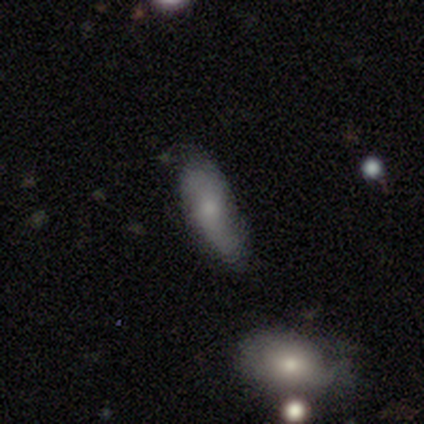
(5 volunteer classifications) This is likely a smooth galaxy (60%). How rounded: likely cigar-shaped (67%). Merging: clearly none (100%).